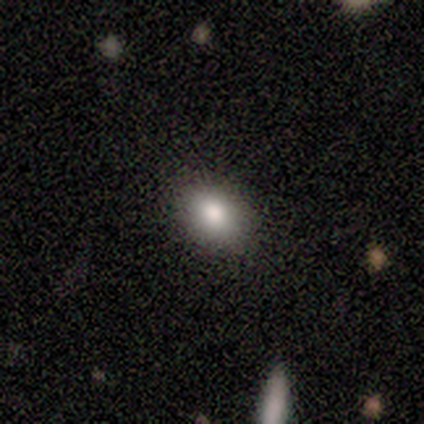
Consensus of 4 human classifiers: Q: Smooth or featured?
A: smooth (75%); runner-up: featured or disk (25%)
Q: How rounded?
A: in between (67%); runner-up: round (33%)
Q: Merging?
A: none (75%); runner-up: minor disturbance (25%)